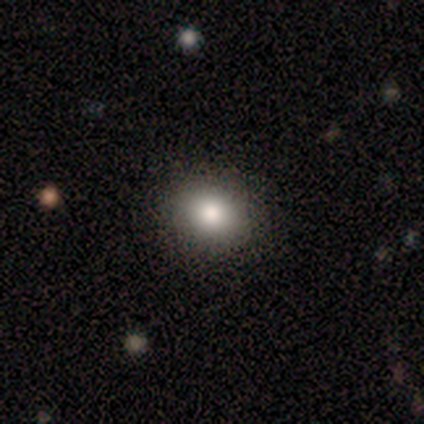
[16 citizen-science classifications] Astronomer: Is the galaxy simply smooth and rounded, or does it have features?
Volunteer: smooth — 75%.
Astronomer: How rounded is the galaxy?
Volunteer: round — 50%, tied with in between at 50%.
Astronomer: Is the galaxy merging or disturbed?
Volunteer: none — 92%.